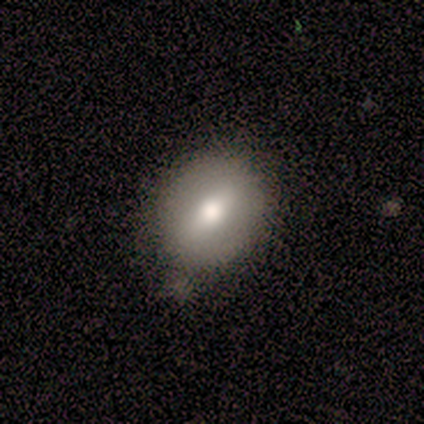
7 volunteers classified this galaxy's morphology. smooth_or_featured: smooth (p=0.57) [alt: featured or disk p=0.43]
how_rounded: round (p=0.75) [alt: in between p=0.25]
merging: none (p=0.86) [alt: minor disturbance p=0.14]